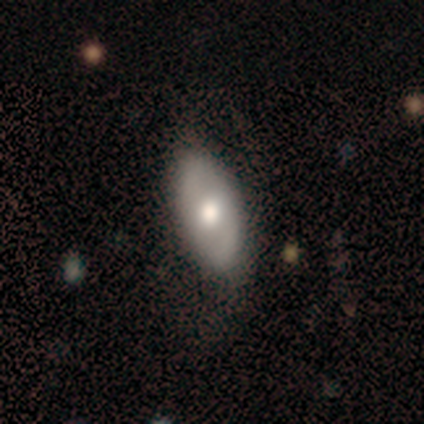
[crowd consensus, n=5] Volunteers were most divided on "smooth or featured": smooth: 60%, featured or disk: 40%, star or artifact: 0%. More confident: how rounded — in between (100%); merging — none (100%).